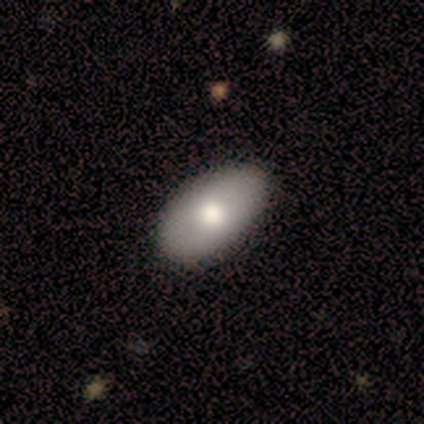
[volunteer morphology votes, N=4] This appears to be a smooth galaxy with no disk features (75%) that is in between round and cigar-shaped (100%). Merging: none (75%).